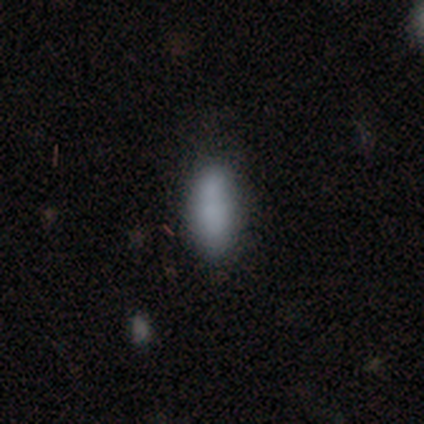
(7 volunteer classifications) Volunteers were most divided on "how rounded": in between: 86%, cigar-shaped: 14%, round: 0%. More confident: smooth or featured — smooth (100%); merging — none (100%).